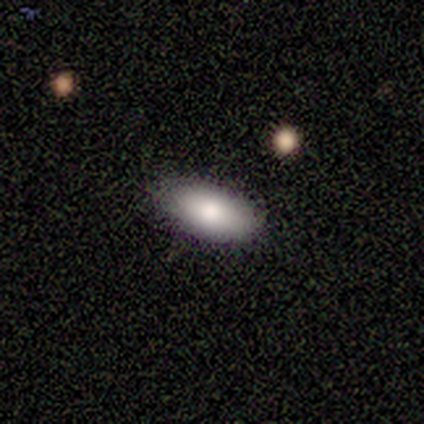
This appears to be a smooth galaxy with no disk features (100%) that is in between round and cigar-shaped (100%). Merging: none (86%).